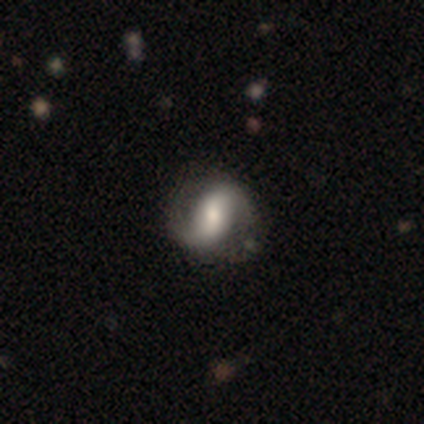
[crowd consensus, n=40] Overall: featured or disk (82%). Edge-on disk: no (100%). Bar: strong (39%; no 33%). Spiral arms: yes (85%). Spiral arm count: 2 (89%). Spiral winding: loose (54%; medium 25%). Bulge size: moderate (52%; large 30%). Merging: none (74%).